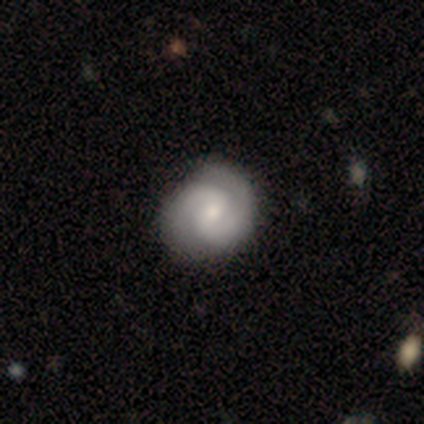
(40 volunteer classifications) Morphology: type=featured or disk (85%); edge-on=no (100%); bar=weak (62%); spiral arms=yes (97%); winding=tight (52%); arm count=2 (100%); bulge=moderate (59%); merging=none (60%).